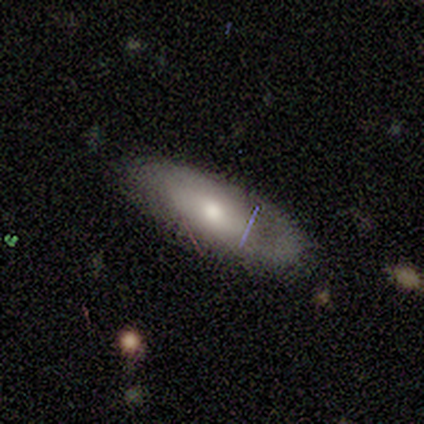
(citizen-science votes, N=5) Smooth or featured? 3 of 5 (60%) said smooth. How rounded? 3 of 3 (100%) said in between. Merging? 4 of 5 (80%) said none.